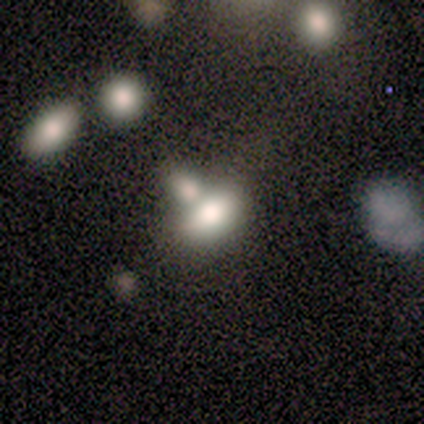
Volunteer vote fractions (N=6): Smooth or featured?
  - smooth: 83% *
  - star or artifact: 17%
  - featured or disk: 0%
How rounded?
  - in between: 60% *
  - round: 20%
  - cigar-shaped: 20%
Merging?
  - none: 40% * (tied)
  - merger: 40% * (tied)
  - minor disturbance: 20%
  - major disturbance: 0%